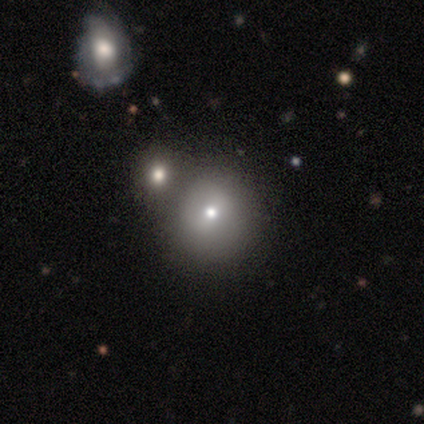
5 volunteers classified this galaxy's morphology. smooth_or_featured: smooth (p=0.80) [alt: star or artifact p=0.20]
how_rounded: round (p=1.00)
merging: merger (p=0.75) [alt: none p=0.25]